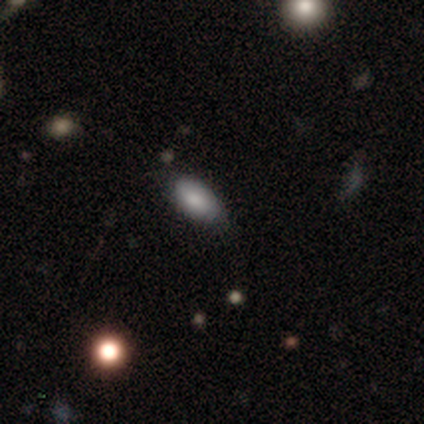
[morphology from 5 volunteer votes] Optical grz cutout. It shows a smooth galaxy with no disk features (80%) that is in between round and cigar-shaped (100%). Merging: none (40%, tied with minor disturbance).